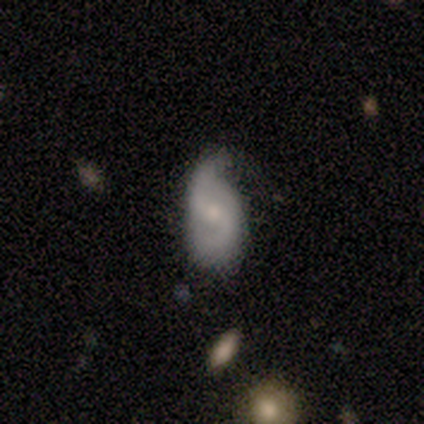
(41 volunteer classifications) This appears to be a featured or disk galaxy (83%) with a weak bar (56%), 2 (90%) loose (58%) spiral arms (91%) and a moderate central bulge (50%). Merging: minor disturbance (53%).